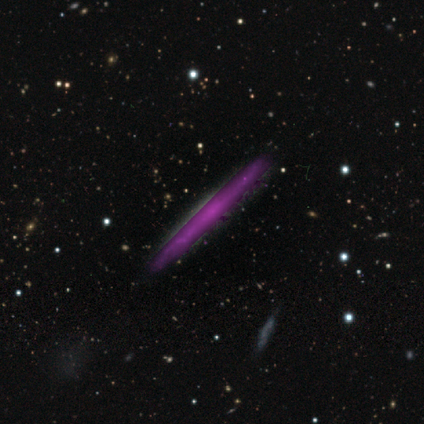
featured or disk 80%, smooth 20%, star or artifact 0%. Down the decision tree: edge-on disk — yes (75%); edge-on bulge — none (100%); merging — none (80%).